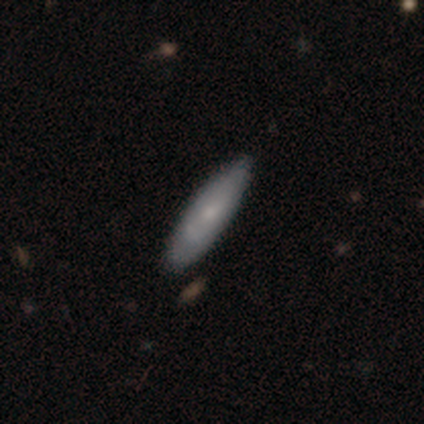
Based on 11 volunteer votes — smooth_or_featured: featured or disk (p=0.64) [alt: smooth p=0.36]
disk_edge_on: yes (p=0.57) [alt: no p=0.43]
edge_on_bulge: none (p=0.50) [tied with: rounded p=0.50]
merging: none (p=0.64) [alt: minor disturbance p=0.36]